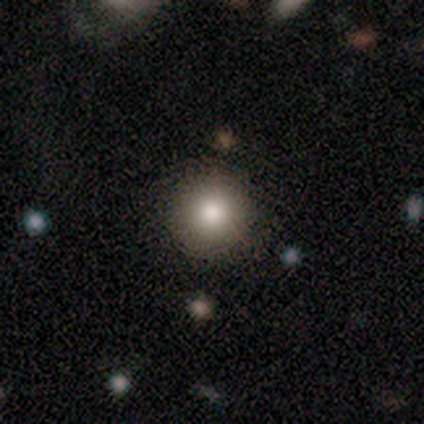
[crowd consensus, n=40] smooth_or_featured: smooth (p=0.70) [alt: star or artifact p=0.23]
how_rounded: round (p=0.93) [alt: cigar-shaped p=0.07]
merging: none (p=0.90) [alt: minor disturbance p=0.06]